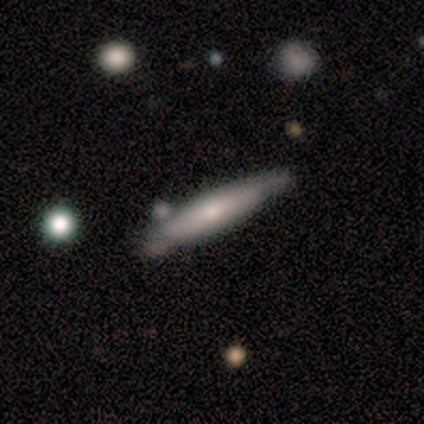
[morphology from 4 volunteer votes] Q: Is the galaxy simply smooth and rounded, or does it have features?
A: smooth — 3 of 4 (75%).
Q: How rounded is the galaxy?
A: cigar-shaped — 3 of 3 (100%).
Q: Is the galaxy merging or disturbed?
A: minor disturbance — 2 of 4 (50%).